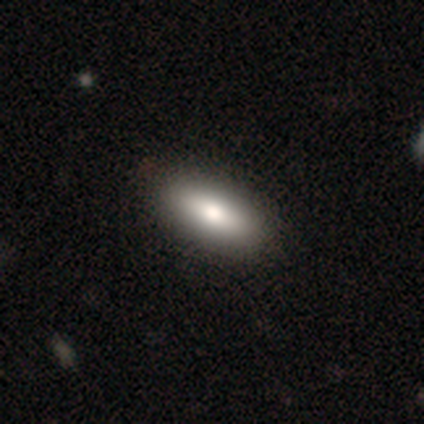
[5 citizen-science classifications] This is likely a smooth galaxy (60%). How rounded: clearly in between (100%). Merging: clearly none (100%).